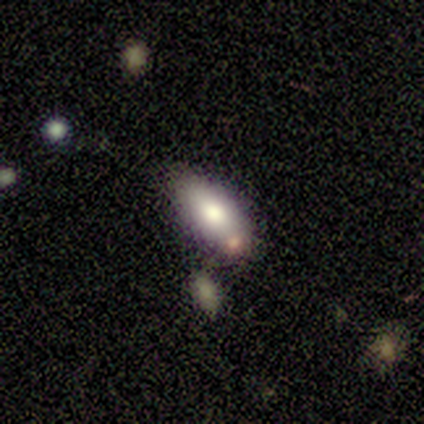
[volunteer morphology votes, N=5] smooth-or-featured: smooth: 100% | featured or disk: 0% | star or artifact: 0%
  how-rounded: in between: 100% | round: 0% | cigar-shaped: 0%
  merging: minor disturbance: 60% | none: 40% | major disturbance: 0% | merger: 0%